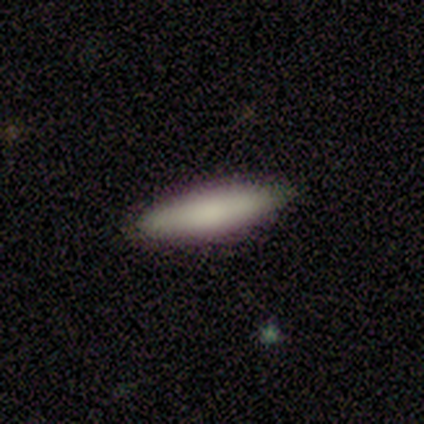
This is clearly a smooth galaxy (100%). How rounded: likely in between (67%). Merging: clearly none (100%).